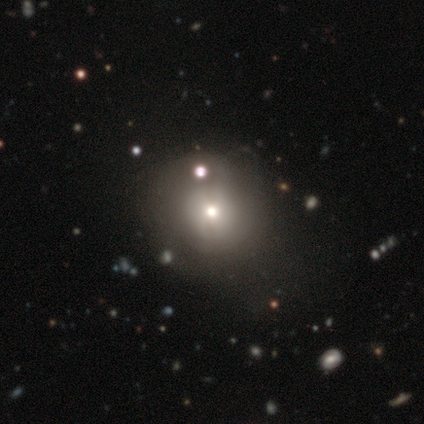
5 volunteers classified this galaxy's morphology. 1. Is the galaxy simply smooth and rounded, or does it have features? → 60% smooth, 20% featured or disk, 20% star or artifact.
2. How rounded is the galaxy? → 67% round, 33% in between, 0% cigar-shaped.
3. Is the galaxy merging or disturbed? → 75% none, 25% merger, 0% minor disturbance, 0% major disturbance.